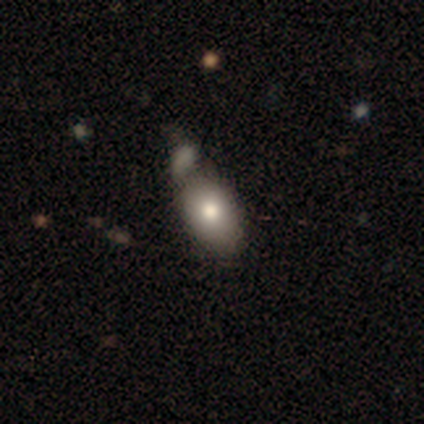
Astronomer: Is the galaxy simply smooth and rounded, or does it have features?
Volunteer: smooth — 75%.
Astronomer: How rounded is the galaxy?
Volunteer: in between — 100%.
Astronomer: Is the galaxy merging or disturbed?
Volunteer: minor disturbance — 75%.